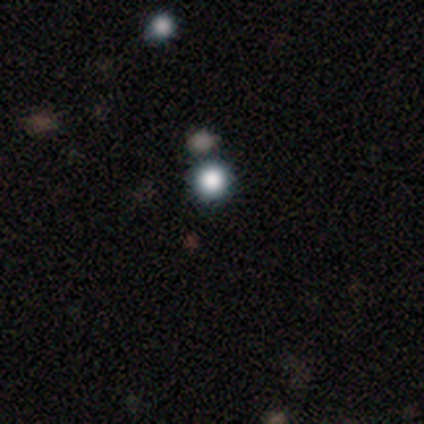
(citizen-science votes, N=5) Smooth or featured? star or artifact (60%)